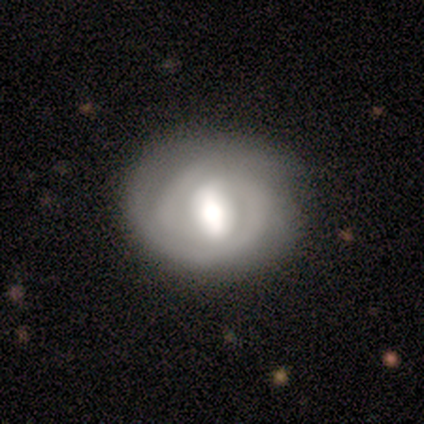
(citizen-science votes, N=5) smooth 60%, featured or disk 40%, star or artifact 0%. Down the decision tree: how rounded — round (67%); merging — none (100%).